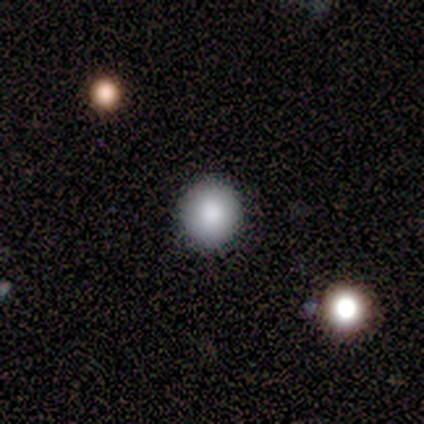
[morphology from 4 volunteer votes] smooth 100%, featured or disk 0%, star or artifact 0%. Down the decision tree: how rounded — round (100%); merging — none (50%).